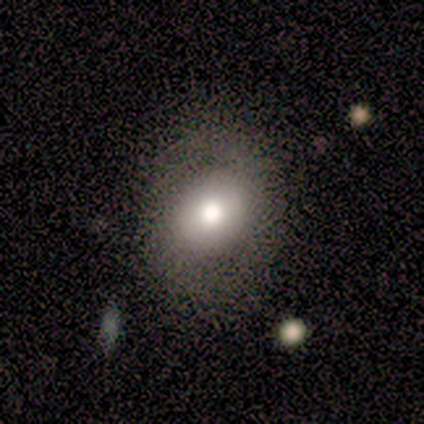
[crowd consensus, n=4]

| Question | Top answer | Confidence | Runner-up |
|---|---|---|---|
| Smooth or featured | smooth | 75% | featured or disk (25%) |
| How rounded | in between | 67% | round (33%) |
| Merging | none | 50% | minor disturbance (25%) |